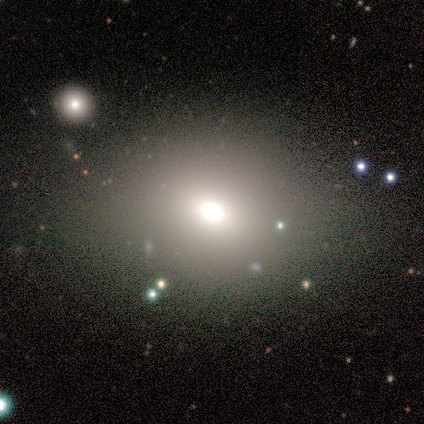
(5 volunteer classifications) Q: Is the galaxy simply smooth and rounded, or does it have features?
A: smooth — 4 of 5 (80%).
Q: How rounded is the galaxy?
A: in between — 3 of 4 (75%).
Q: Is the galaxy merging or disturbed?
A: none — 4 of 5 (80%).